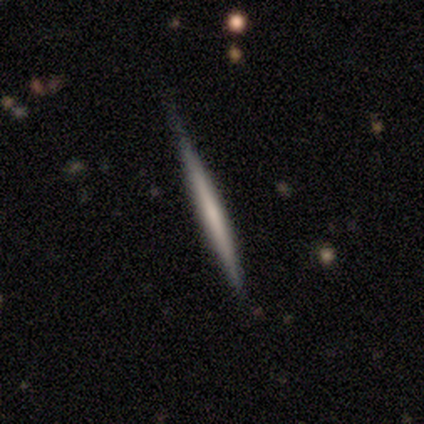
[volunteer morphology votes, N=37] This is likely a featured or disk galaxy (65%). It is clearly viewed edge-on (100%). Edge-on bulge: clearly none (88%). Merging: clearly none (83%).